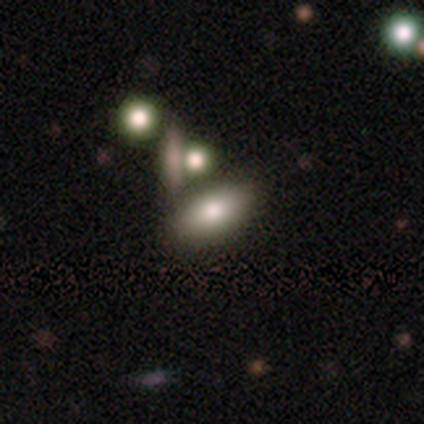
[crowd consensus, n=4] Q: Smooth or featured?
A: smooth (100%)
Q: How rounded?
A: in between (100%)
Q: Merging?
A: none (75%); runner-up: merger (25%)